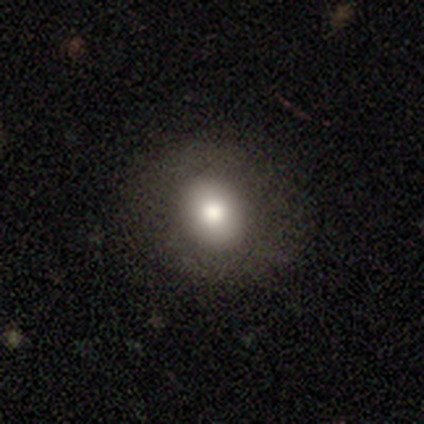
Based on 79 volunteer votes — This appears to be a smooth galaxy with no disk features (80%) that is round (59%). Merging: none (56%).